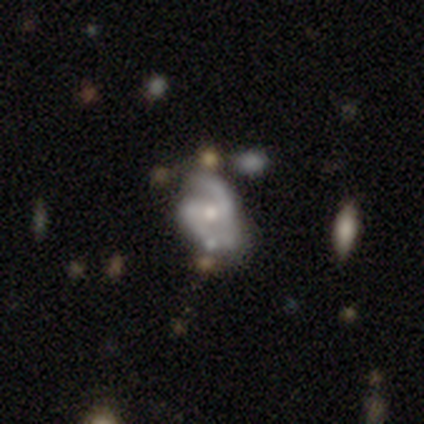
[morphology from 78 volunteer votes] A featured or disk galaxy (90%) with no bar (45%), 2 (92%) medium (53%) spiral arms (93%) and a moderate central bulge (58%). Merging: none (26%).